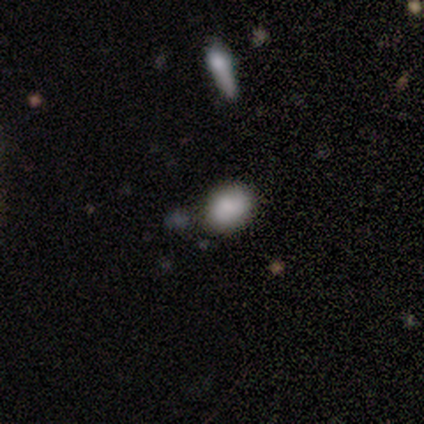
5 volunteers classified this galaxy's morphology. type=smooth (100%); roundness=in between (60%); merging=none (80%).